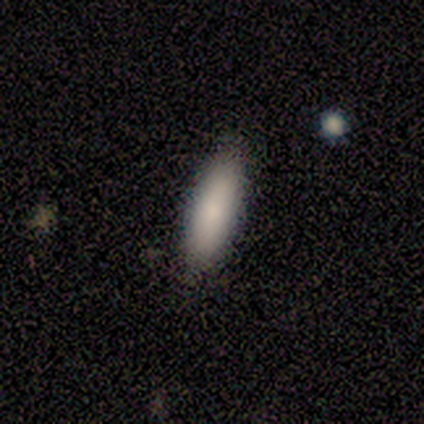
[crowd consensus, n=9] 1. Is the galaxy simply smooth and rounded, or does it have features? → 100% smooth, 0% featured or disk, 0% star or artifact.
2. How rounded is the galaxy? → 56% cigar-shaped, 44% in between, 0% round.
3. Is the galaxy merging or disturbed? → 100% none, 0% minor disturbance, 0% major disturbance, 0% merger.